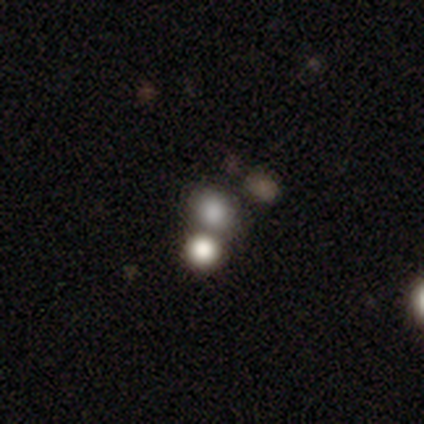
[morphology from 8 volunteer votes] smooth 50%, featured or disk 25%, star or artifact 25%. Down the decision tree: how rounded — in between (75%); merging — none (50%).